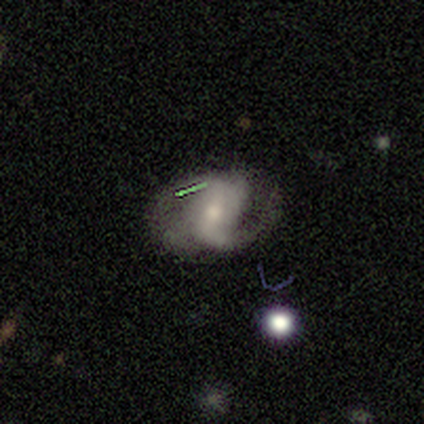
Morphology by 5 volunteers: Smooth or featured? 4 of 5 (80%) said featured or disk. Edge-on disk? 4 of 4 (100%) said no. Bar? 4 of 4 (100%) said weak. Spiral arms? 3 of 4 (75%) said yes. Spiral winding? 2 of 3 (67%) said medium. Spiral arm count? 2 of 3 (67%) said 2. Bulge size? 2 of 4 (50%) said small. Merging? 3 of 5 (60%) said none.